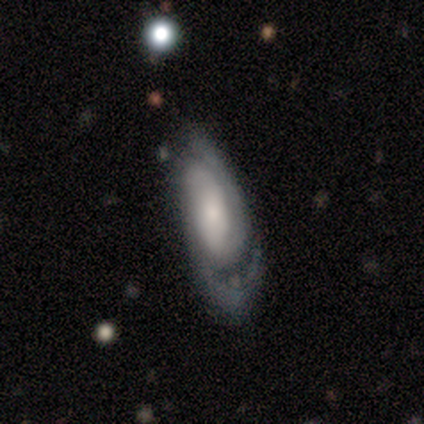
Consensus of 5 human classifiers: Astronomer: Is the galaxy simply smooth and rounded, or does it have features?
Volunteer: featured or disk — 100%.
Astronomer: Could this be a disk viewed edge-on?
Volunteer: no — 80%.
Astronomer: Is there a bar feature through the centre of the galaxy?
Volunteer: no — 100%.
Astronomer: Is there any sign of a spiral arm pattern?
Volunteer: yes — 100%.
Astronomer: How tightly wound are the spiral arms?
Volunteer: tight — 50%.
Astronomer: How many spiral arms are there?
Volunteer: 2 — 75%.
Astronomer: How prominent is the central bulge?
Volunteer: small — 50%.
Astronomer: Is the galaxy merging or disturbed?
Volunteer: none — 80%.